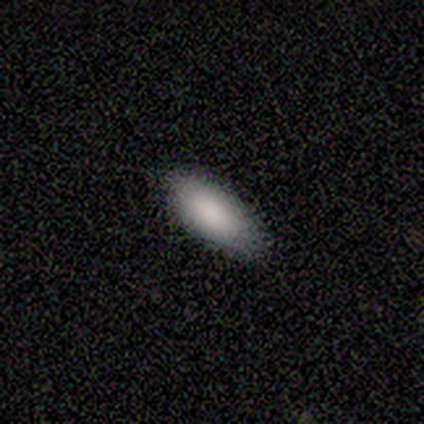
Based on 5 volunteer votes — Smooth or featured: smooth — 100%
How rounded: in between — 100%
Merging: none — 80% (minor disturbance — 20%)